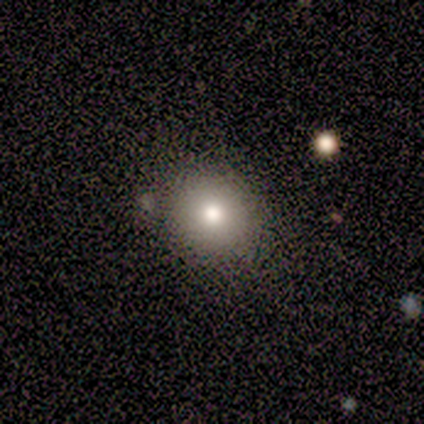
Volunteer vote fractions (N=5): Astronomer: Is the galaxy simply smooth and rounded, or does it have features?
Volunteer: smooth — 60% (runner-up: star or artifact, 40%).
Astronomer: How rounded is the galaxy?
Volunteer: round — 100%.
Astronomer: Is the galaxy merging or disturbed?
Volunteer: none — 67%.